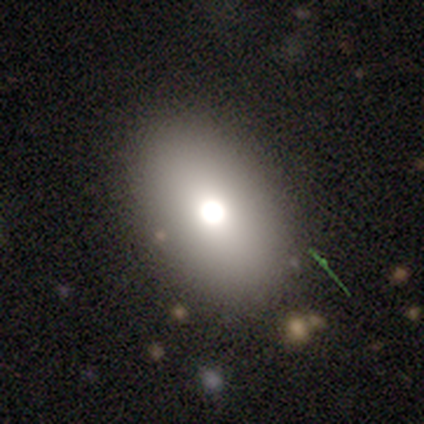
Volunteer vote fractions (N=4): Morphology: type=smooth (75%); roundness=in between (100%); merging=none (100%).